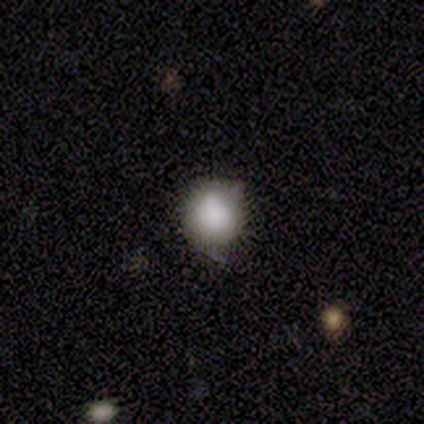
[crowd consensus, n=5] Overall: star or artifact (60%; smooth 40%).